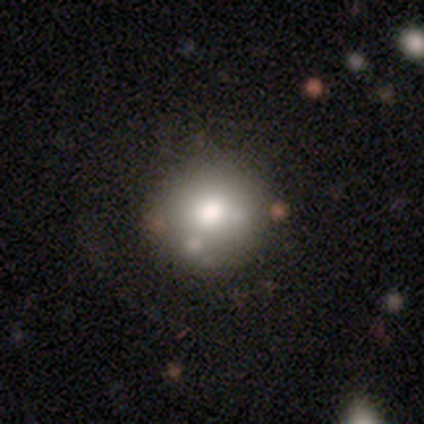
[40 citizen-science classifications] This appears to be a smooth galaxy with no disk features (82%) that is round (82%). Merging: none (75%).